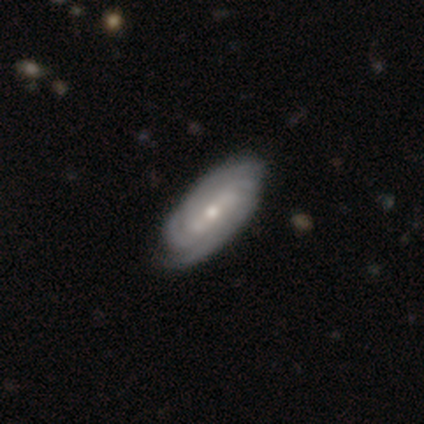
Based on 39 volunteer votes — Q: Smooth or featured?
A: featured or disk (95%); runner-up: smooth (3%)
Q: Edge-on disk?
A: no (100%)
Q: Bar?
A: weak (49%); runner-up: strong (38%)
Q: Spiral arms?
A: yes (100%)
Q: Spiral winding?
A: tight (59%); runner-up: medium (38%)
Q: Spiral arm count?
A: 2 (32%); runner-up: can't tell (27%)
Q: Bulge size?
A: moderate (65%); runner-up: small (35%)
Q: Merging?
A: none (79%); runner-up: minor disturbance (5%)